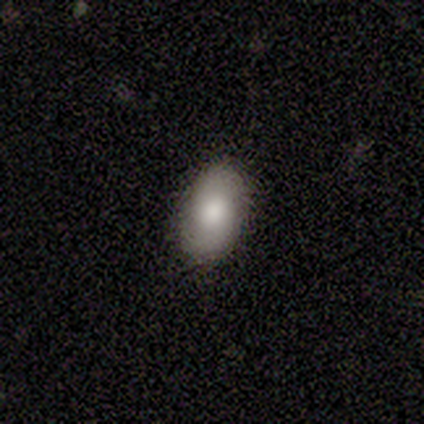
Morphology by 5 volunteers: This appears to be a smooth galaxy with no disk features (60%) that is in between round and cigar-shaped (100%). Merging: none (100%).